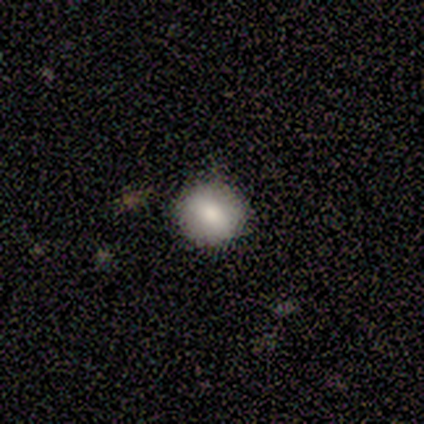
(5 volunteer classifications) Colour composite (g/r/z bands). It shows a smooth galaxy with no disk features (40%, tied with featured or disk) that is round (100%). Merging: none (75%).